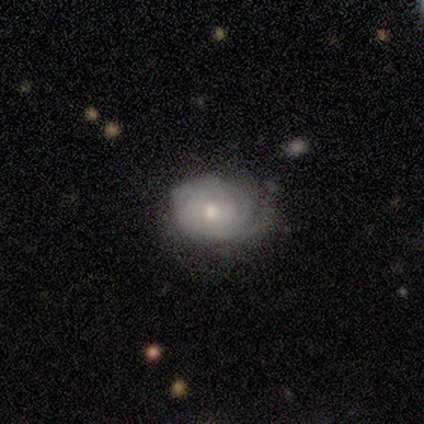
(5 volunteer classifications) Smooth or featured? 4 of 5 (80%) said featured or disk. Edge-on disk? 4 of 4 (100%) said no. Bar? 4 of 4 (100%) said no. Spiral arms? 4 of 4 (100%) said yes. Spiral winding? 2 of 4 (50%, tied with medium) said tight. Spiral arm count? 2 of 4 (50%) said can't tell. Bulge size? 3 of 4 (75%) said moderate. Merging? 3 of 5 (60%) said none.